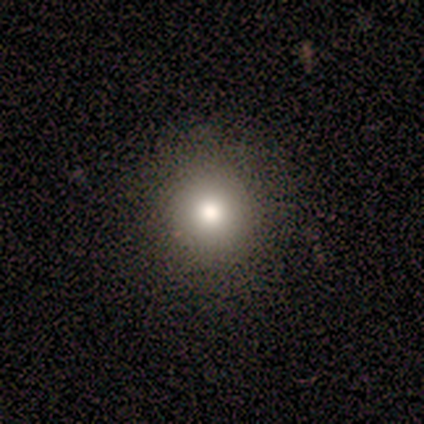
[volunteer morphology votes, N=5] Smooth or featured?
  - smooth: 60% *
  - featured or disk: 20%
  - star or artifact: 20%
How rounded?
  - round: 100% *
  - in between: 0%
  - cigar-shaped: 0%
Merging?
  - none: 100% *
  - minor disturbance: 0%
  - major disturbance: 0%
  - merger: 0%